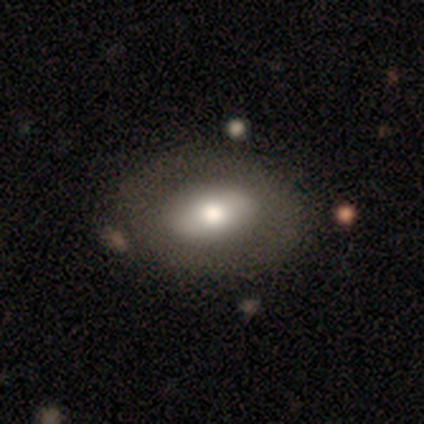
This appears to be a featured or disk galaxy (60%) with a strong bar (67%), no spiral arms (100%) and a large central bulge (33%, tied with moderate and none). Merging: none (80%).